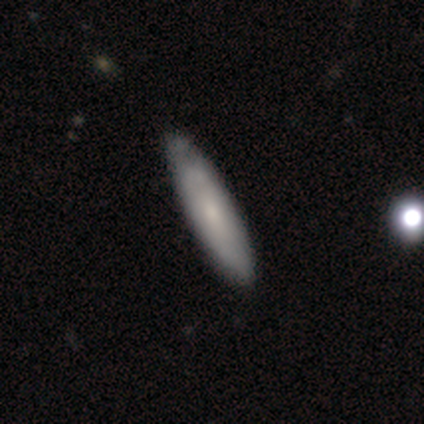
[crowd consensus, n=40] Morphology: type=smooth (52%); roundness=cigar-shaped (67%); merging=none (44%).